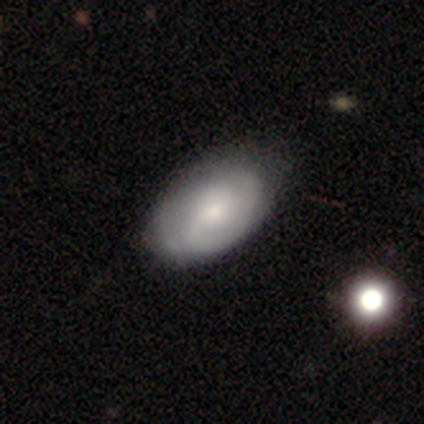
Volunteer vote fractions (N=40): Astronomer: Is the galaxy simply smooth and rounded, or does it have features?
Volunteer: featured or disk — 55% (runner-up: smooth, 42%).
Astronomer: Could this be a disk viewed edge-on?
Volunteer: no — 100%.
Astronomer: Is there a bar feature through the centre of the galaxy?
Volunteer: no — 64%.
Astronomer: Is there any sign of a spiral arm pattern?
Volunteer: yes — 95%.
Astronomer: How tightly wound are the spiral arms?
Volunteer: tight — 62%.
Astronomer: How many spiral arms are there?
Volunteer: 2 — 52% (runner-up: can't tell, 33%).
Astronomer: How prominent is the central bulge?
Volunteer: moderate — 64%.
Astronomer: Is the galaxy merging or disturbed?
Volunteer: none — 46%.